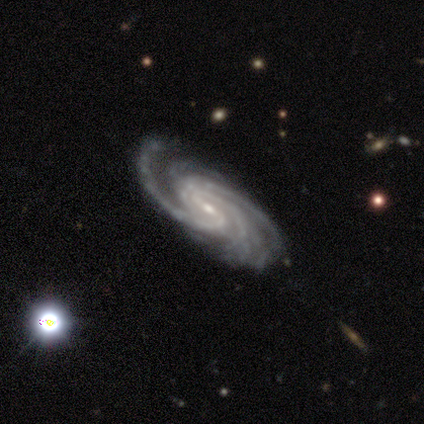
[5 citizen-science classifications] Volunteers were most divided on "merging": none: 60%, minor disturbance: 40%, major disturbance: 0%, merger: 0%. More confident: smooth or featured — featured or disk (100%); edge-on disk — no (100%); spiral arms — yes (100%); bulge size — small (100%); bar — weak (80%); spiral winding — tight (60%); spiral arm count — more than 4 (60%).